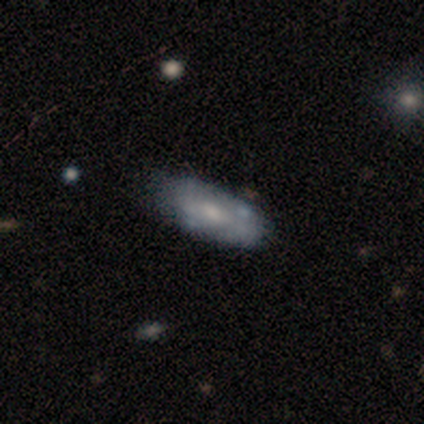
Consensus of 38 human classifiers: featured or disk 63%, smooth 37%, star or artifact 0%. Down the decision tree: edge-on disk — no (96%); bar — no (70%); spiral arms — no (65%); bulge size — moderate (61%); merging — none (61%).